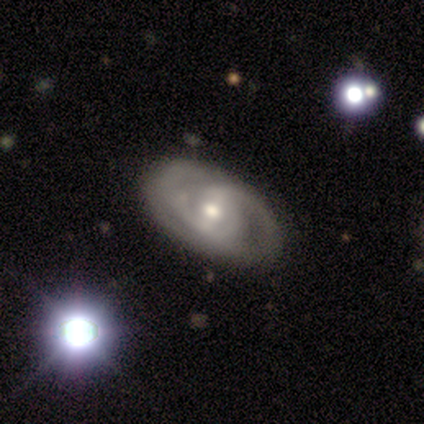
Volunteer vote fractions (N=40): This appears to be a featured or disk galaxy (80%) with a weak bar (42%), 2 (52%) tight (56%) spiral arms (87%) and a moderate central bulge (55%). Merging: none (68%).